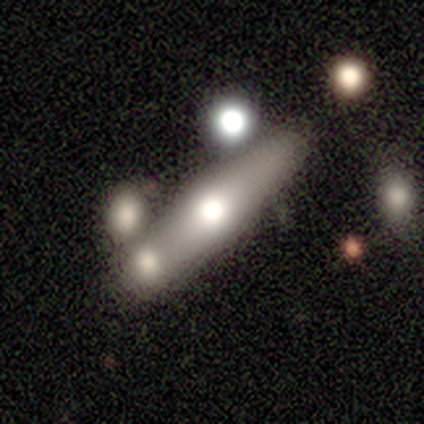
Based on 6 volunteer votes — Smooth or featured: featured or disk — 67% (smooth — 33%)
Edge-on disk: yes — 75% (no — 25%)
Edge-on bulge: rounded — 67% (none — 33%)
Merging: none — 67% (merger — 33%)